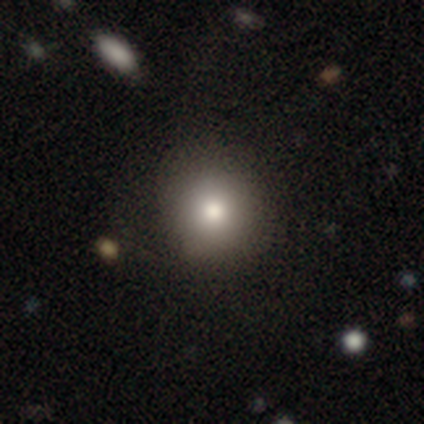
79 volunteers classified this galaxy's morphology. smooth 81%, star or artifact 11%, featured or disk 8%. Down the decision tree: how rounded — round (91%); merging — none (56%).